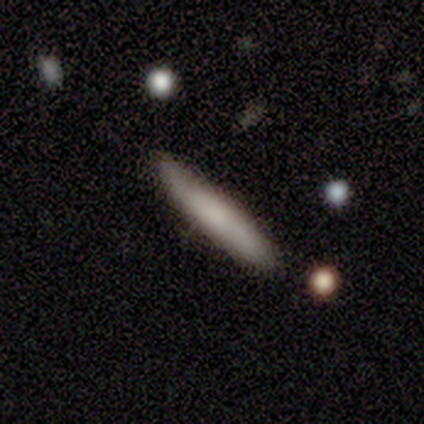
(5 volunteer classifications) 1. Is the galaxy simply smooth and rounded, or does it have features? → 80% smooth, 20% featured or disk, 0% star or artifact.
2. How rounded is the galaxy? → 100% cigar-shaped, 0% round, 0% in between.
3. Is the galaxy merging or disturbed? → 80% none, 20% minor disturbance, 0% major disturbance, 0% merger.